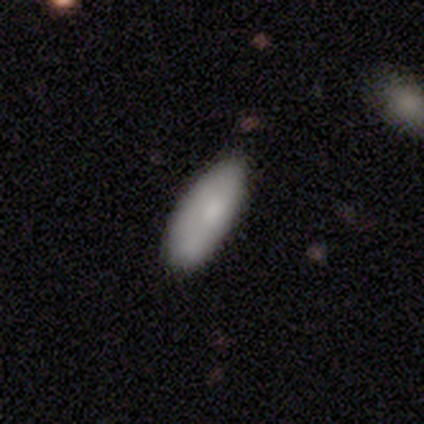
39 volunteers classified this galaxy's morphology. Smooth or featured?
  - smooth: 79% *
  - featured or disk: 13%
  - star or artifact: 8%
How rounded?
  - in between: 94% *
  - cigar-shaped: 6%
  - round: 0%
Merging?
  - none: 75% *
  - minor disturbance: 22%
  - merger: 3%
  - major disturbance: 0%